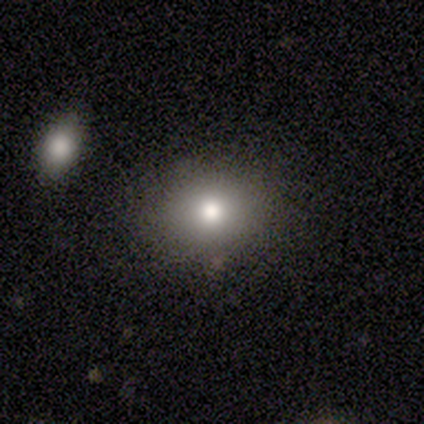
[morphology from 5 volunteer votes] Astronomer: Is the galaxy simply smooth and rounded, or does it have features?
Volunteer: smooth — 100%.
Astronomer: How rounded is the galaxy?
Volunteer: in between — 60% (runner-up: round, 40%).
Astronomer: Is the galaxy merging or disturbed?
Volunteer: none — 80%.